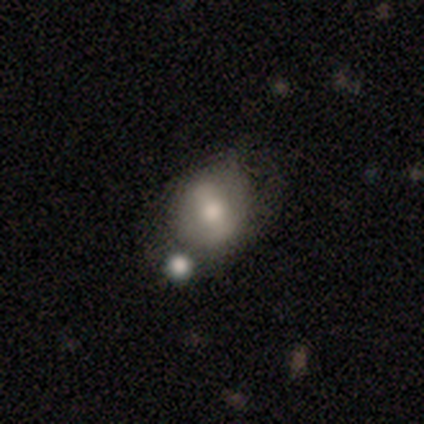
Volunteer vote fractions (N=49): smooth_or_featured: smooth (p=0.59) [alt: featured or disk p=0.33]
how_rounded: round (p=0.55) [alt: in between p=0.45]
merging: none (p=0.67) [alt: minor disturbance p=0.16]